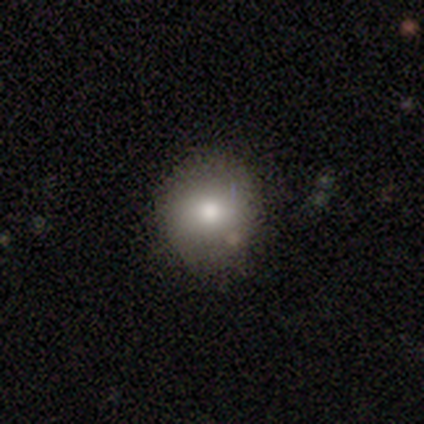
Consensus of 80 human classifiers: A smooth galaxy with no disk features (86%) that is round (86%).

Vote fractions:
- Smooth or featured? smooth: 86% / featured or disk: 9% / star or artifact: 5%
- How rounded? round: 86% / in between: 14% / cigar-shaped: 0%
- Merging? none: 58% / minor disturbance: 4% / major disturbance: 0% / merger: 0%